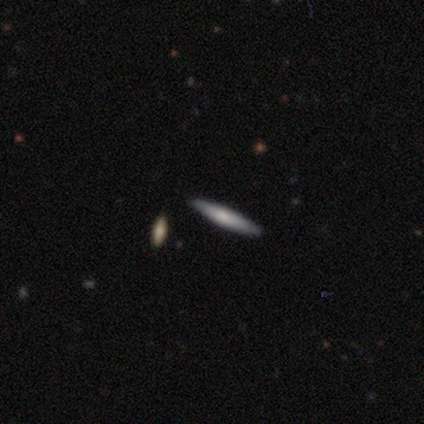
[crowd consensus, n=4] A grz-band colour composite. It shows a smooth galaxy with no disk features (50%, tied with featured or disk) that is cigar-shaped (100%). Merging: none (75%).